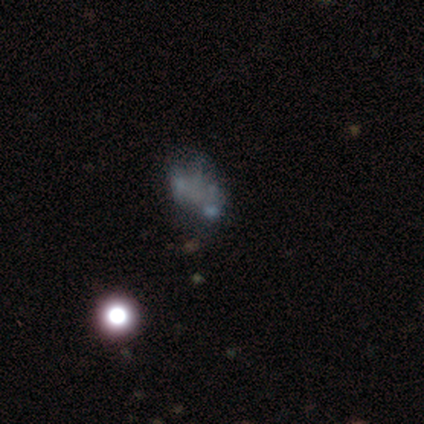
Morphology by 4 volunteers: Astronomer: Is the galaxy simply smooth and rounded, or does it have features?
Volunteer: featured or disk — 75%.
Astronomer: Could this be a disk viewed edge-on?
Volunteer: no — 100%.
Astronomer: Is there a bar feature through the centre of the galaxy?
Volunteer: no — 100%.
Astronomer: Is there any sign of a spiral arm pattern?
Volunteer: no — 100%.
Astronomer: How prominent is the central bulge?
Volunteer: none — 100%.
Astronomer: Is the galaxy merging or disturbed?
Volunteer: none — 75%.